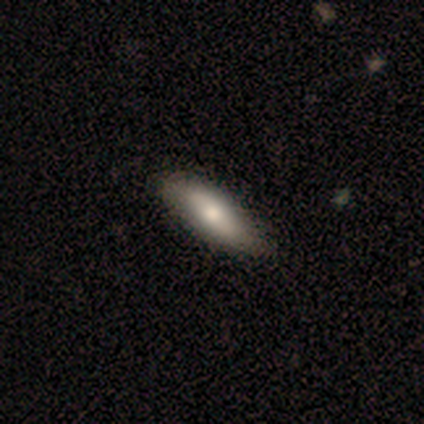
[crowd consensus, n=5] A smooth galaxy with no disk features (80%) that is in between round and cigar-shaped (50%, tied with cigar-shaped).

Vote fractions:
- Smooth or featured? smooth: 80% / featured or disk: 20% / star or artifact: 0%
- How rounded? in between: 50% (tied) / cigar-shaped: 50% (tied) / round: 0%
- Merging? none: 60% / minor disturbance: 40% / major disturbance: 0% / merger: 0%